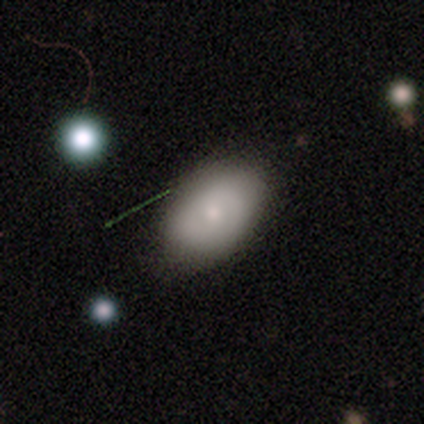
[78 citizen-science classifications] Smooth or featured? 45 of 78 (58%) said smooth. How rounded? 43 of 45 (96%) said in between. Merging? 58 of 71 (82%) said none.